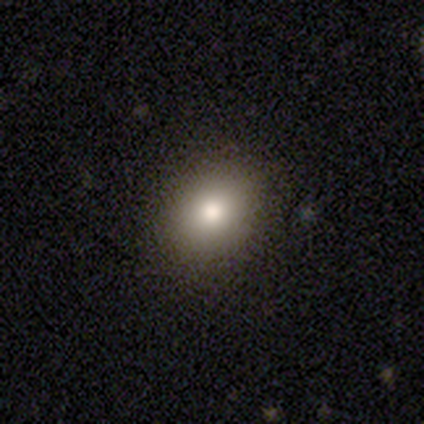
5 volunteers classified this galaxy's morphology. Smooth or featured? 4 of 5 (80%) said smooth. How rounded? 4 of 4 (100%) said round. Merging? 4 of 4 (100%) said none.